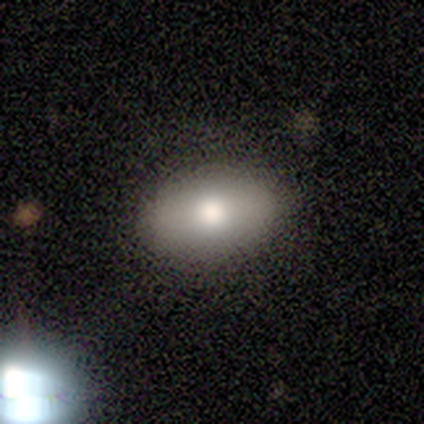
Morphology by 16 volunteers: This is likely a smooth galaxy (75%). How rounded: clearly in between (92%). Merging: clearly none (87%).